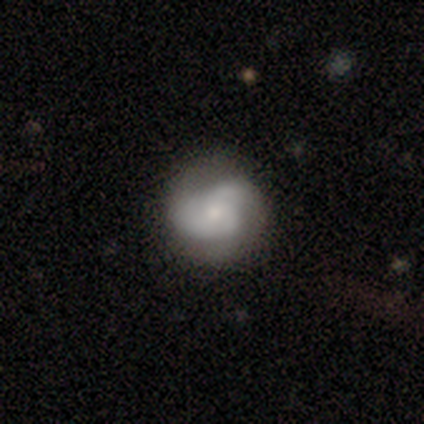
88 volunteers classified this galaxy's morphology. A featured or disk galaxy (61%) with no bar (84%), 3 (41%) tight (39%) spiral arms (84%) and a small central bulge (57%).

Vote fractions:
- Smooth or featured? featured or disk: 61% / smooth: 33% / star or artifact: 6%
- Edge-on disk? no: 91% / yes: 9%
- Bar? no: 84% / weak: 16% / strong: 0%
- Spiral arms? yes: 84% / no: 16%
- Spiral winding? tight: 39% / medium: 37% / loose: 24%
- Spiral arm count? 3: 41% / 2: 34% / can't tell: 22% / 1: 2% / 4: 0% / more than 4: 0%
- Bulge size? small: 57% / moderate: 31% / none: 10% / dominant: 2% / large: 0%
- Merging? none: 65% / minor disturbance: 28% / major disturbance: 5% / merger: 2%